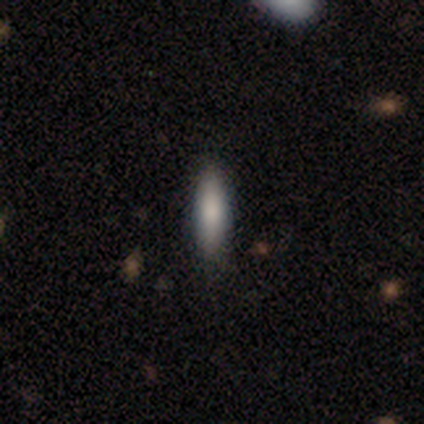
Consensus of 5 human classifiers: This appears to be a smooth galaxy with no disk features (80%) that is cigar-shaped (75%). Merging: none (80%).